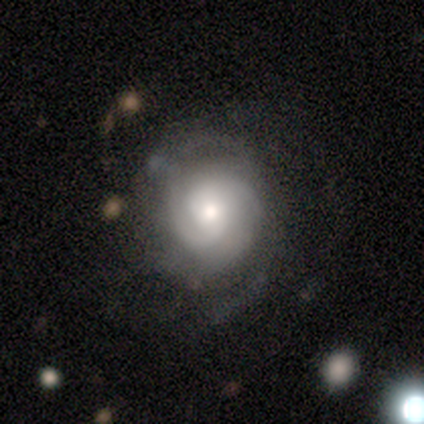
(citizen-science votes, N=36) Smooth or featured: featured or disk — 83% (smooth — 14%)
Edge-on disk: no — 97% (yes — 3%)
Bar: no — 79% (weak — 17%)
Spiral arms: yes — 97% (no — 3%)
Spiral winding: tight — 54% (medium — 32%)
Spiral arm count: can't tell — 46% (2 — 25%)
Bulge size: moderate — 52% (small — 34%)
Merging: none — 63% (minor disturbance — 23%)